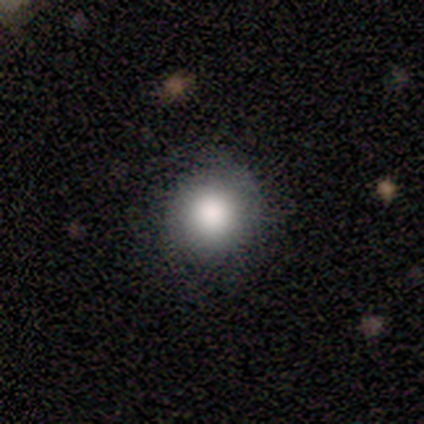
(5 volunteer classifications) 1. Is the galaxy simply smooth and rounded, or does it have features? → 100% smooth, 0% featured or disk, 0% star or artifact.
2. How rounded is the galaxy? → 100% round, 0% in between, 0% cigar-shaped.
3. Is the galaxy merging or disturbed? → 60% none, 40% major disturbance, 0% minor disturbance, 0% merger.